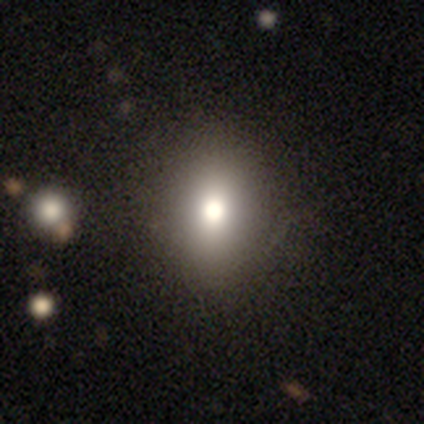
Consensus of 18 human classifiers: Overall: smooth (72%). How rounded: in between (54%; round 38%). Merging: none (100%).